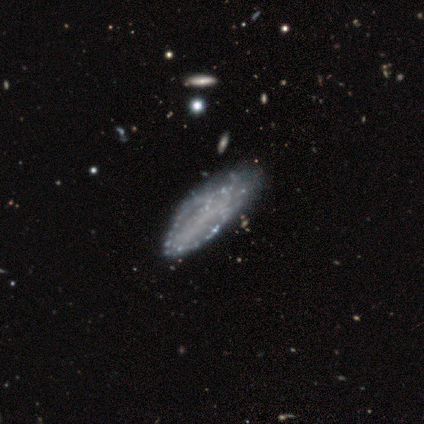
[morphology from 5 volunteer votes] smooth-or-featured: smooth: 80% | featured or disk: 20% | star or artifact: 0%
  how-rounded: in between: 75% | cigar-shaped: 25% | round: 0%
  merging: minor disturbance: 60% | none: 40% | major disturbance: 0% | merger: 0%